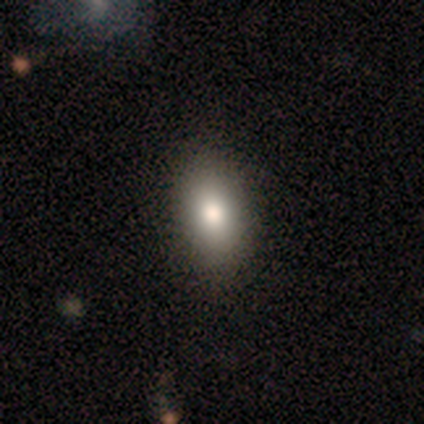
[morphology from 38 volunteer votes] This appears to be a smooth galaxy with no disk features (82%) that is in between round and cigar-shaped (94%). Merging: none (76%).